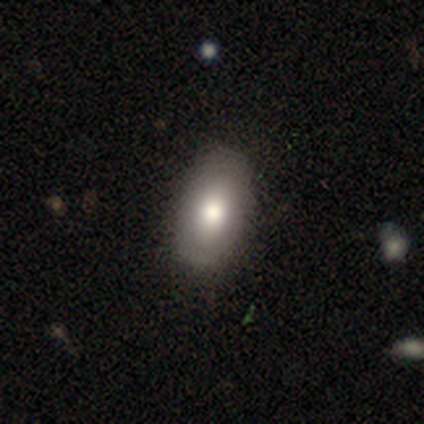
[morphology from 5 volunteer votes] Smooth or featured? smooth (60%)
How rounded? in between (100%)
Merging? none (75%)